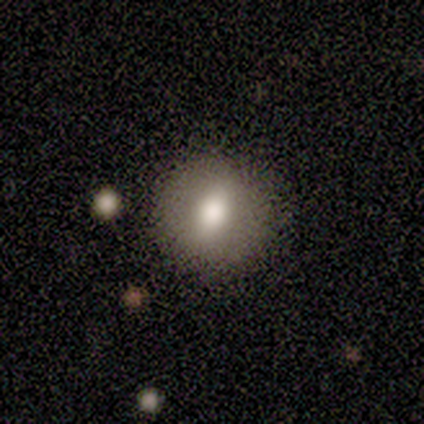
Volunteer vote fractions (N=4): smooth 50% (tied), featured or disk 50% (tied), star or artifact 0%. Down the decision tree: how rounded — round (50%, tied with in between); merging — none (75%).